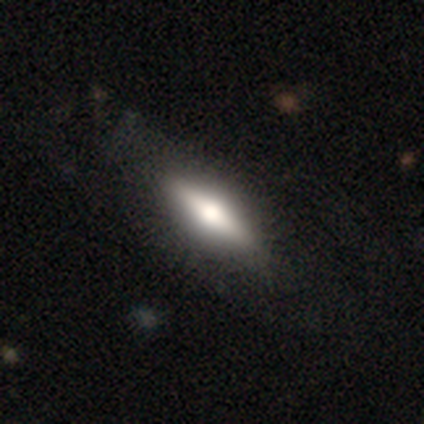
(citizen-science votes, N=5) smooth 60%, featured or disk 40%, star or artifact 0%. Down the decision tree: how rounded — in between (67%); merging — none (100%).